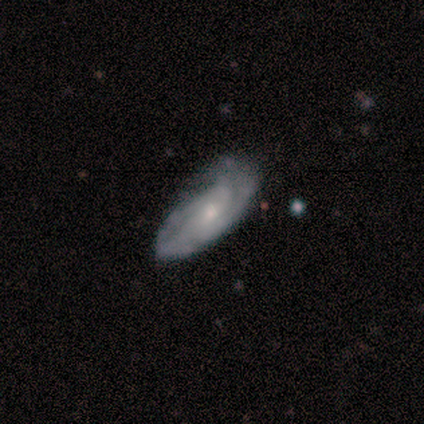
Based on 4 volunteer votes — Smooth or featured? 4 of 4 (100%) said featured or disk. Edge-on disk? 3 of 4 (75%) said no. Bar? 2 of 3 (67%) said no. Spiral arms? 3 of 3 (100%) said yes. Spiral winding? 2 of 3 (67%) said tight. Spiral arm count? 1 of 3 (33%, tied with 2 and more than 4) said 1. Bulge size? 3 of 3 (100%) said small. Merging? 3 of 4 (75%) said none.